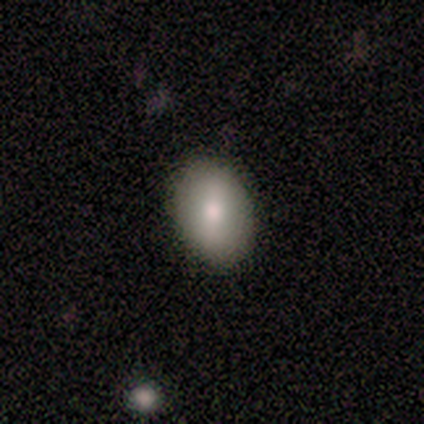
A smooth galaxy with no disk features (100%) that is round (60%). Merging: none (80%).